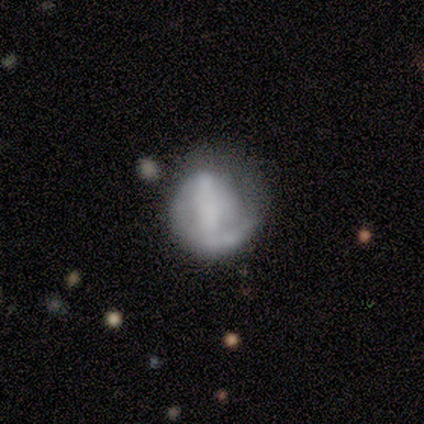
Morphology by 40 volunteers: Volunteers were most divided on "merging" (2-way tie): none: 24%, minor disturbance: 24%, major disturbance: 16%, merger: 3%. Remaining: edge-on disk — no (100%); spiral arms — yes (77%); spiral arm count — 1 (59%); smooth or featured — featured or disk (55%); bar — strong (50%); spiral winding — tight (41%); bulge size — none (36%).